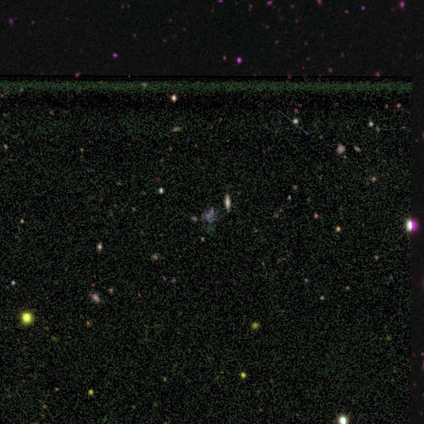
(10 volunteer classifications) A star or artifact, not a galaxy (50%).

Vote fractions:
- Smooth or featured? star or artifact: 50% / smooth: 40% / featured or disk: 10%